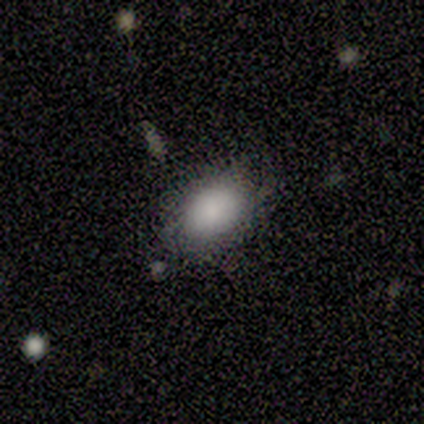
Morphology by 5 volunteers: A smooth galaxy with no disk features (80%) that is in between round and cigar-shaped (100%).

Vote fractions:
- Smooth or featured? smooth: 80% / star or artifact: 20% / featured or disk: 0%
- How rounded? in between: 100% / round: 0% / cigar-shaped: 0%
- Merging? minor disturbance: 75% / none: 25% / major disturbance: 0% / merger: 0%